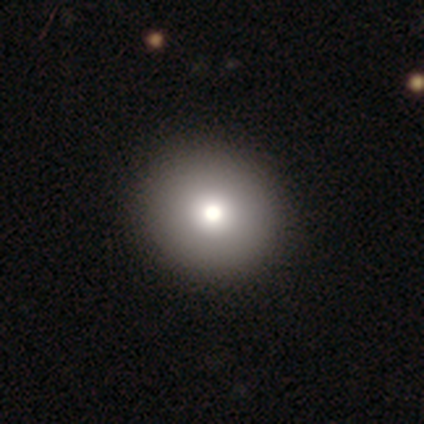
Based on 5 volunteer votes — This appears to be a smooth galaxy with no disk features (60%) that is round (100%). Merging: none (100%).